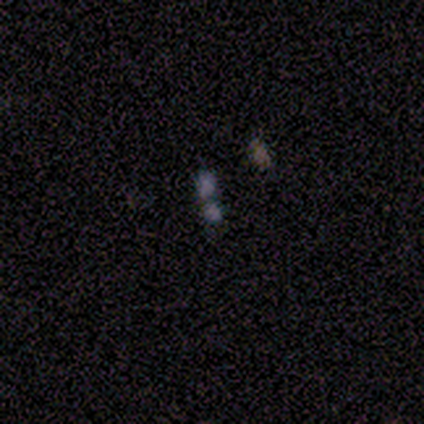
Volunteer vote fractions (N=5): Smooth or featured? 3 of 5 (60%) said star or artifact.